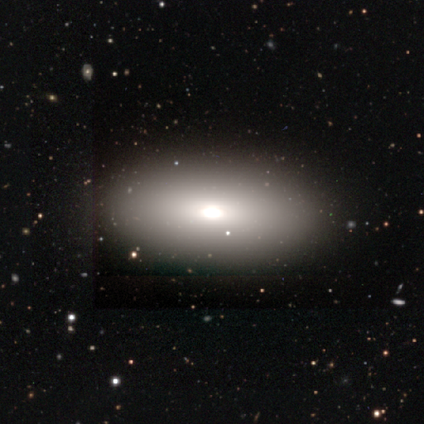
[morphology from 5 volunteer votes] This appears to be a smooth galaxy with no disk features (80%) that is in between round and cigar-shaped (100%). Merging: none (100%).